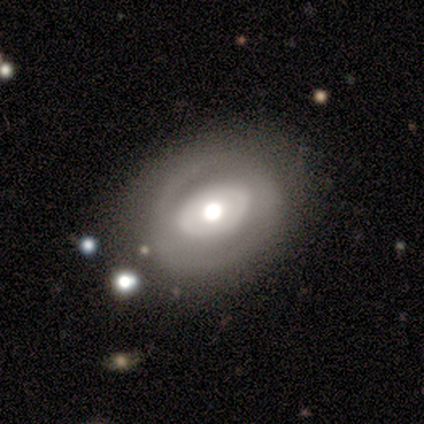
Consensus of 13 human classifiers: smooth-or-featured: featured or disk: 69% | smooth: 31% | star or artifact: 0%
  disk-edge-on: no: 78% | yes: 22%
    bar: no: 86% | weak: 14% | strong: 0%
    has-spiral-arms: no: 71% | yes: 29%
    bulge-size: moderate: 57% | large: 43% | dominant: 0% | small: 0% | none: 0%
  merging: none: 77% | major disturbance: 15% | minor disturbance: 8% | merger: 0%